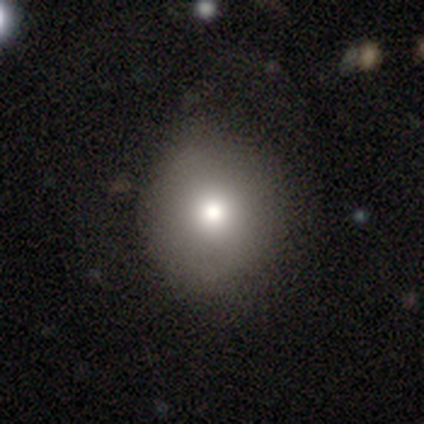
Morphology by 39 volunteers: smooth_or_featured: smooth (p=0.74) [alt: featured or disk p=0.13]
how_rounded: round (p=0.90) [alt: in between p=0.10]
merging: none (p=0.71) [alt: minor disturbance p=0.24]